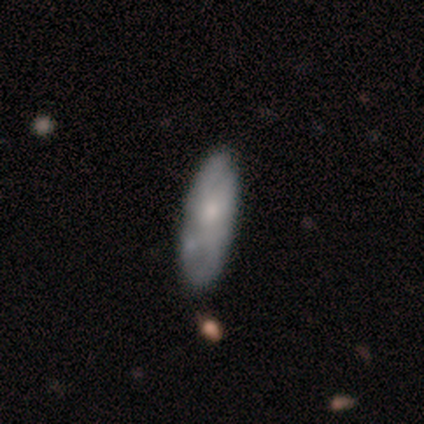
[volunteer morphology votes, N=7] type=smooth (71%); roundness=in between (100%); merging=none (57%).